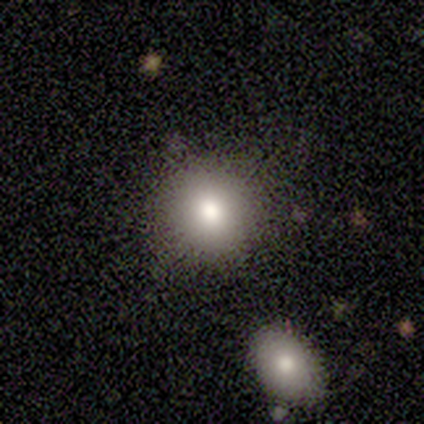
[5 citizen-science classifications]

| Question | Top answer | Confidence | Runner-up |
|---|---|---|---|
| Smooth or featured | smooth | 60% | star or artifact (40%) |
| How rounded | round | 100% | — |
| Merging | none | 100% | — |